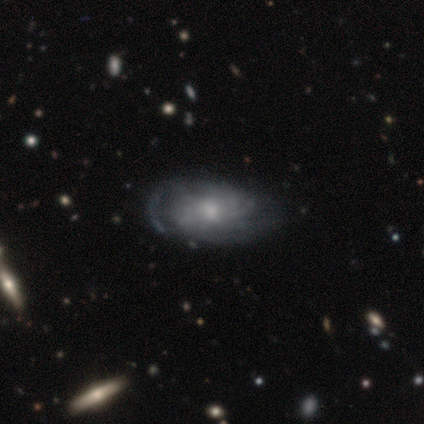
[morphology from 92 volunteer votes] Overall: featured or disk (70%). Edge-on disk: no (97%). Bar: no (71%). Spiral arms: yes (81%). Spiral arm count: can't tell (48%; 2 26%). Spiral winding: tight (54%; medium 30%). Bulge size: small (48%; moderate 45%). Merging: none (64%).